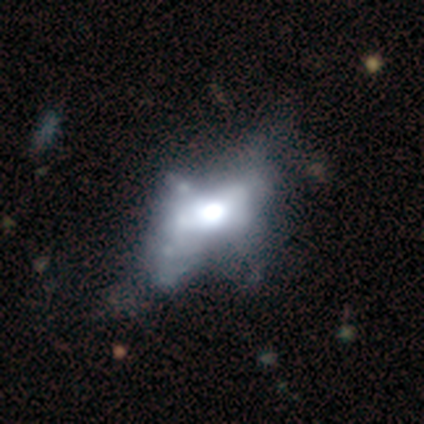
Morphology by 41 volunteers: A featured or disk galaxy (59%) with no bar (92%), no spiral arms (88%) and a large central bulge (62%). Merging: major disturbance (32%).